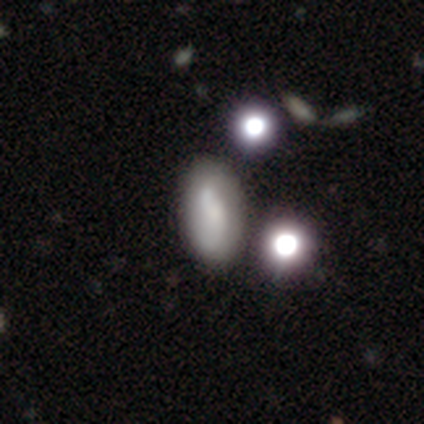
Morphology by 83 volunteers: Smooth or featured?
  - smooth: 59% *
  - featured or disk: 22%
  - star or artifact: 19%
How rounded?
  - in between: 86% *
  - cigar-shaped: 10%
  - round: 4%
Merging?
  - none: 70% *
  - minor disturbance: 15%
  - merger: 12%
  - major disturbance: 3%